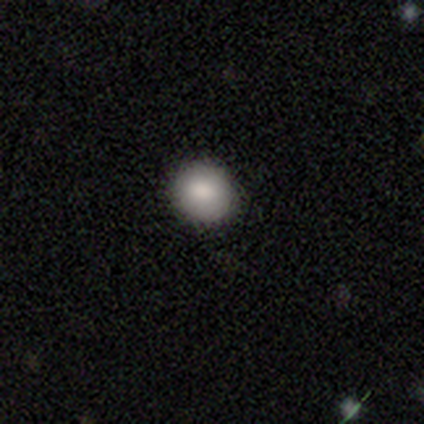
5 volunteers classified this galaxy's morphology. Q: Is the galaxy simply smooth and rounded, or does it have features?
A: smooth — 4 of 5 (80%).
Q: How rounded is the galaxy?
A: round — 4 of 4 (100%).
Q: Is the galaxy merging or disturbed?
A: none — 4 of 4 (100%).